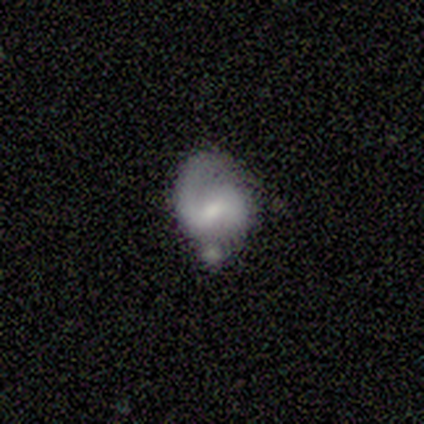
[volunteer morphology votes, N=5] This appears to be a featured or disk galaxy (80%) with a weak bar (100%), 1 (100%) medium (67%) spiral arms (75%) and a moderate central bulge (75%). Merging: none (60%).